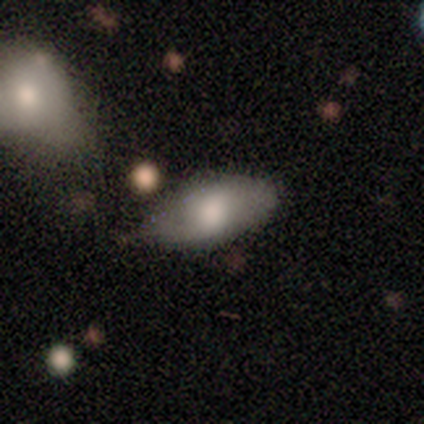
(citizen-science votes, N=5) Smooth or featured? smooth (60%)
How rounded? in between (67%)
Merging? none (60%)